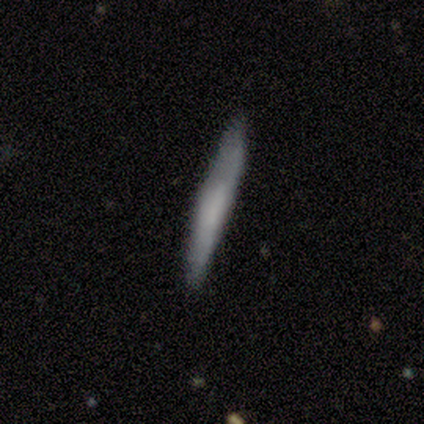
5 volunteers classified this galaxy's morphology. Smooth or featured: featured or disk — 60% (smooth — 40%)
Edge-on disk: yes — 67% (no — 33%)
Edge-on bulge: none — 50% (tied with rounded — 50%)
Merging: none — 100%